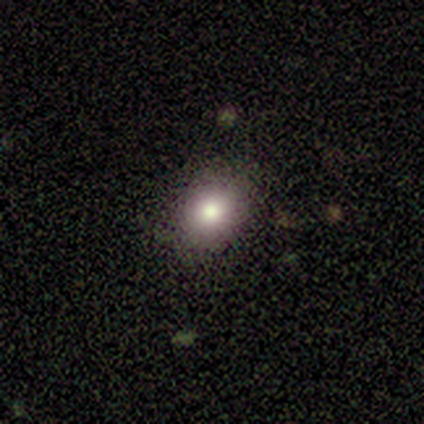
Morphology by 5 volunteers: Overall: smooth (80%). How rounded: round (50%, tied with in between). Merging: none (80%).